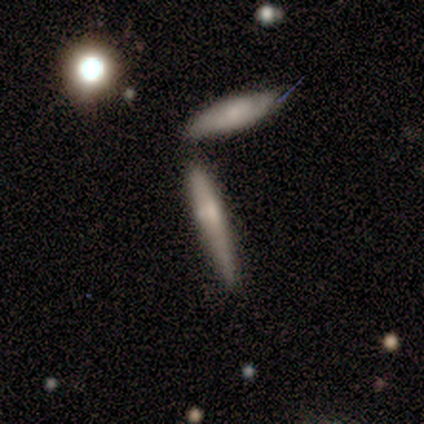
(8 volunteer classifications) Smooth or featured: smooth — 62% (featured or disk — 38%)
How rounded: cigar-shaped — 100%
Merging: none — 62% (merger — 25%)